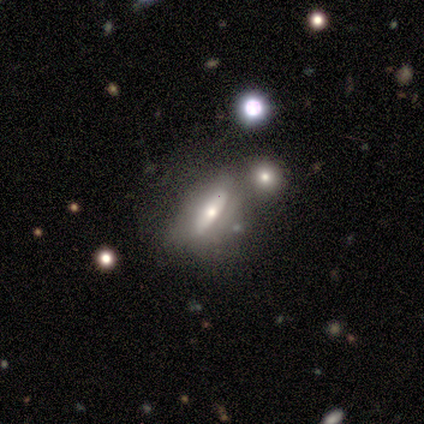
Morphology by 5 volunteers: Q: Smooth or featured?
A: featured or disk (80%); runner-up: smooth (20%)
Q: Edge-on disk?
A: yes (50%); tied with: no (50%)
Q: Edge-on bulge?
A: rounded (100%)
Q: Merging?
A: none (80%); runner-up: minor disturbance (20%)